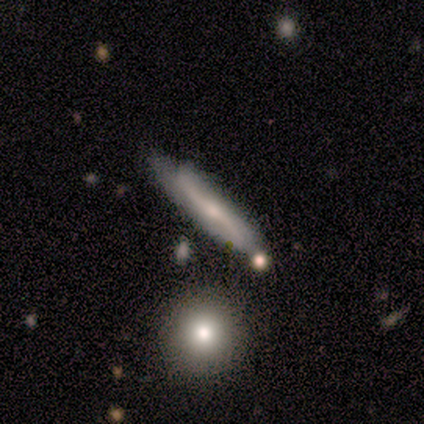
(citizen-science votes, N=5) Volunteers were most divided on "smooth or featured": featured or disk: 60%, smooth: 40%, star or artifact: 0%. More confident: edge-on disk — yes (100%); merging — none (80%); edge-on bulge — rounded (67%).